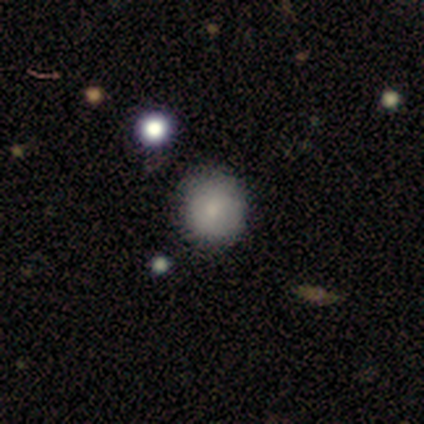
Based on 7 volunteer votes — Morphology: type=smooth (71%); roundness=round (100%); merging=none (100%).